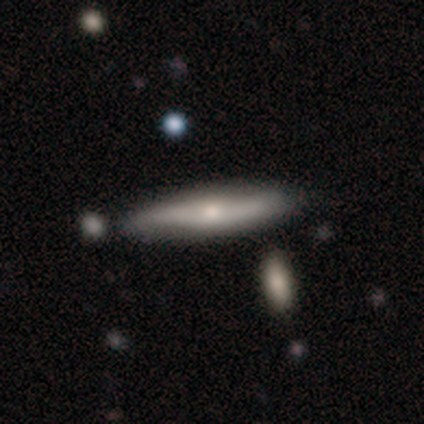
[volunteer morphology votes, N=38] This appears to be a featured or disk galaxy (63%) viewed edge-on (71%) with a rounded central bulge (88%). Merging: none (50%).